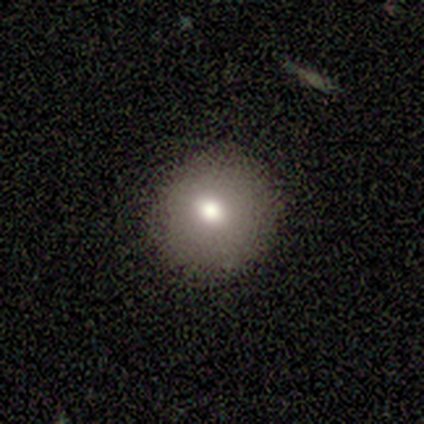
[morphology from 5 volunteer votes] This appears to be a smooth galaxy with no disk features (60%) that is round (67%). Merging: none (100%).